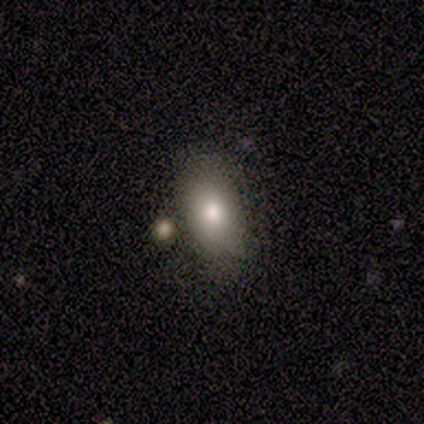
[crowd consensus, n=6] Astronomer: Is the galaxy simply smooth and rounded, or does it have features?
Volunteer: smooth — 67%.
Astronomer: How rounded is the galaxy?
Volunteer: in between — 100%.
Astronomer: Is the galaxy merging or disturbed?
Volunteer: none — 60% (runner-up: minor disturbance, 40%).